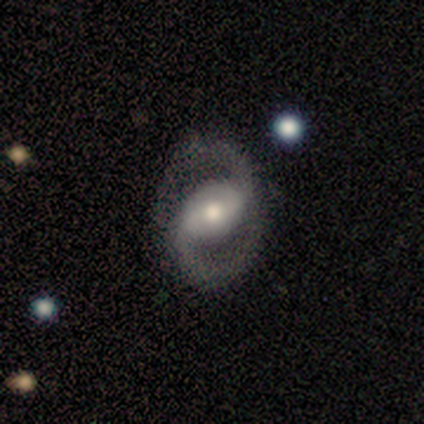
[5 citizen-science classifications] Morphology: type=featured or disk (100%); edge-on=no (100%); bar=weak (60%); spiral arms=yes (100%); winding=medium (80%); arm count=2 (100%); bulge=moderate (60%); merging=none (100%).